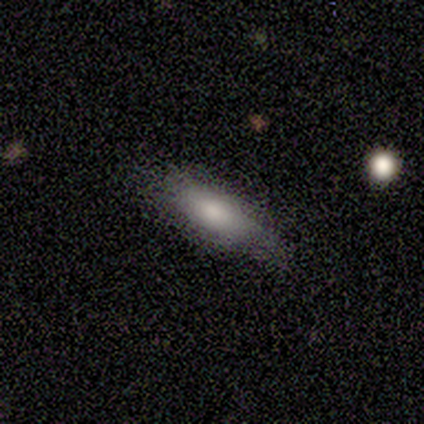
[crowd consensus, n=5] smooth-or-featured: smooth: 100% | featured or disk: 0% | star or artifact: 0%
  how-rounded: in between: 80% | cigar-shaped: 20% | round: 0%
  merging: none: 100% | minor disturbance: 0% | major disturbance: 0% | merger: 0%